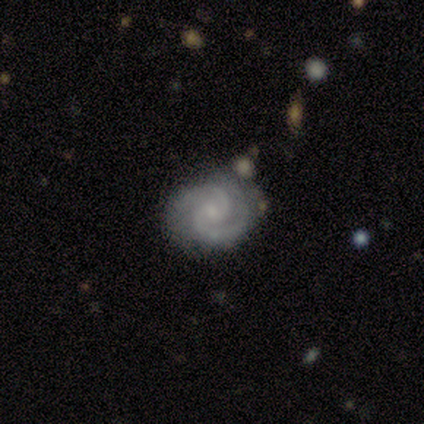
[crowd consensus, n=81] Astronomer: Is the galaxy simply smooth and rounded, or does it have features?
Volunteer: featured or disk — 91%.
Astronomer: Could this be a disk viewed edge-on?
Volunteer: no — 99%.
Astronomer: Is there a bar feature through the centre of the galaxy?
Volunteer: no — 64%.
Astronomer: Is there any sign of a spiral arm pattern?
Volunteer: yes — 100%.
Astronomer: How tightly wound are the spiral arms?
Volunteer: tight — 60% (runner-up: medium, 36%).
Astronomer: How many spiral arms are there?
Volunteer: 2 — 89%.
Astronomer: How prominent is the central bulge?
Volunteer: small — 56%.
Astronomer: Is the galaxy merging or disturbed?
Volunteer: none — 75%.